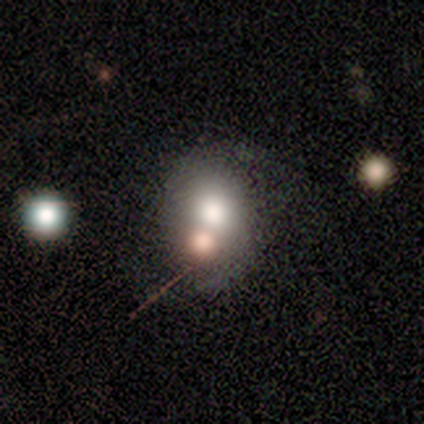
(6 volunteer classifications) Morphology: type=featured or disk (50%); edge-on=no (100%); bar=no (100%); spiral arms=no (100%); bulge=large (67%); merging=merger (80%).